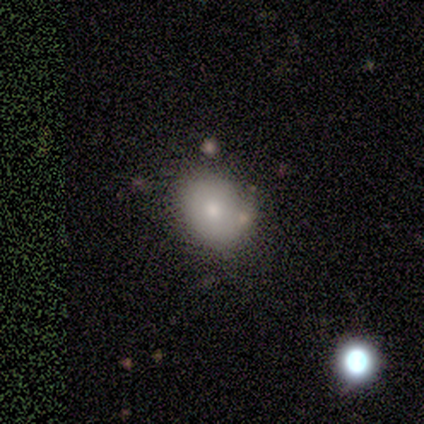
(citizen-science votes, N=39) Morphology: type=smooth (77%); roundness=round (53%); merging=none (58%).